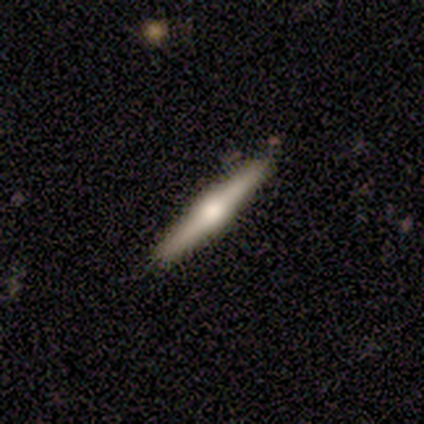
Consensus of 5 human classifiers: Volunteers were most divided on "edge-on bulge": rounded: 75%, boxy: 25%, none: 0%. More confident: edge-on disk — yes (100%); smooth or featured — featured or disk (80%); merging — none (80%).